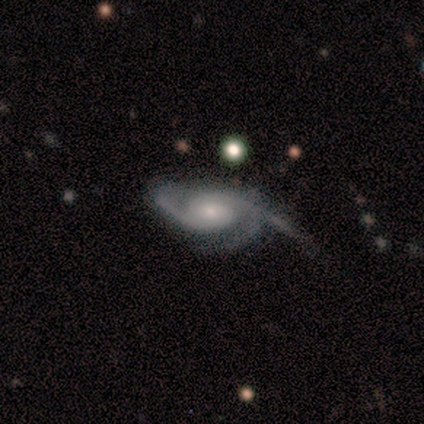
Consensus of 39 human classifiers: Smooth or featured? featured or disk (90%)
Edge-on disk? no (100%)
Bar? no (69%)
Spiral arms? yes (100%)
Spiral winding? tight (40%)
Spiral arm count? 3 (60%)
Bulge size? moderate (54%)
Merging? none (43%)